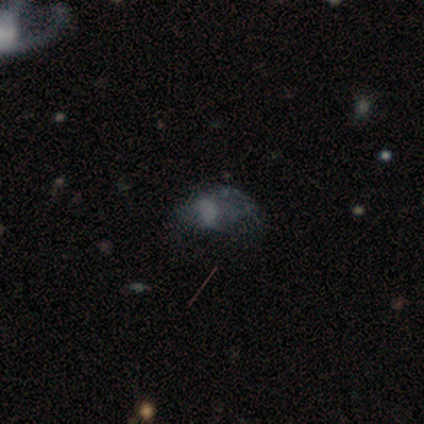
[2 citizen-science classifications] Smooth or featured?
  - featured or disk: 50% * (tied)
  - star or artifact: 50% * (tied)
  - smooth: 0%
Edge-on disk?
  - no: 100% *
  - yes: 0%
Bar?
  - weak: 100% *
  - strong: 0%
  - no: 0%
Spiral arms?
  - no: 100% *
  - yes: 0%
Bulge size?
  - moderate: 100% *
  - dominant: 0%
  - large: 0%
  - small: 0%
  - none: 0%
Merging?
  - major disturbance: 100% *
  - none: 0%
  - minor disturbance: 0%
  - merger: 0%